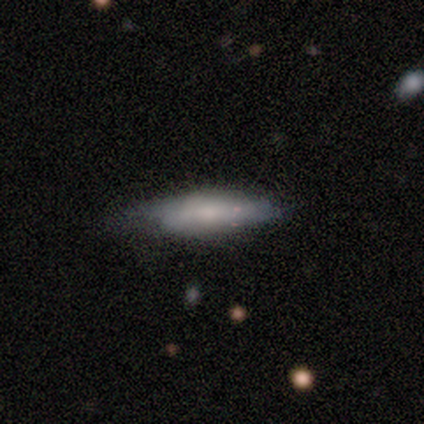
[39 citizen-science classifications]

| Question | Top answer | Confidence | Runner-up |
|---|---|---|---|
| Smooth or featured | smooth | 69% | featured or disk (31%) |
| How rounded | cigar-shaped | 59% | in between (41%) |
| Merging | none | 62% | minor disturbance (31%) |